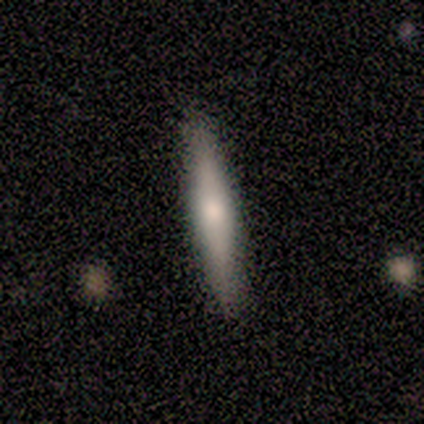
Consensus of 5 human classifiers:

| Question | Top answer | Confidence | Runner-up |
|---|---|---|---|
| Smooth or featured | smooth | 40% | tied: featured or disk (40%) |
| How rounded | cigar-shaped | 100% | — |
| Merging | none | 100% | — |